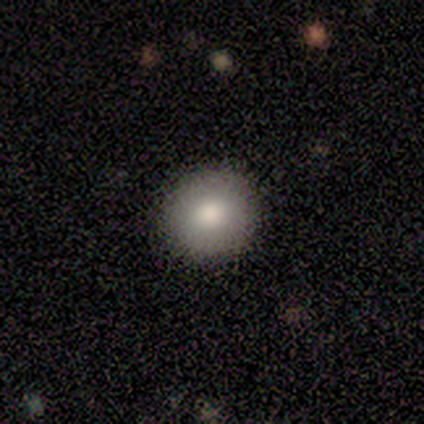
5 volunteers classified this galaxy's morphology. smooth 60%, featured or disk 20%, star or artifact 20%. Down the decision tree: how rounded — round (67%); merging — none (100%).